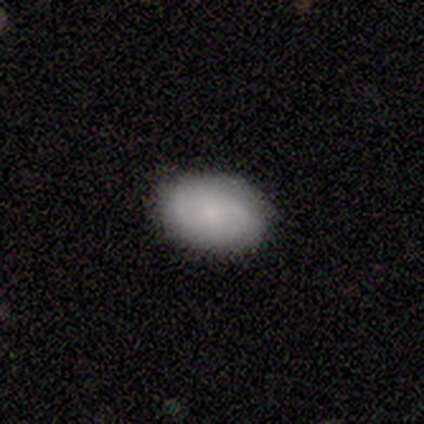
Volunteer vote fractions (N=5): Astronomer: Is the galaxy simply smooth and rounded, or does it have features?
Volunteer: smooth — 80%.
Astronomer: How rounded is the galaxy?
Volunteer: in between — 75%.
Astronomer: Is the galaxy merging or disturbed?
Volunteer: none — 100%.